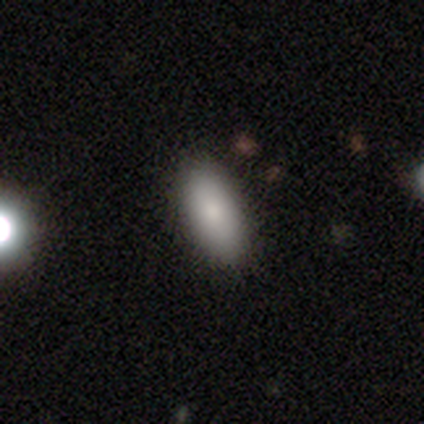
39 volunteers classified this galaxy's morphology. smooth 90%, featured or disk 8%, star or artifact 3%. Down the decision tree: how rounded — in between (91%); merging — none (92%).